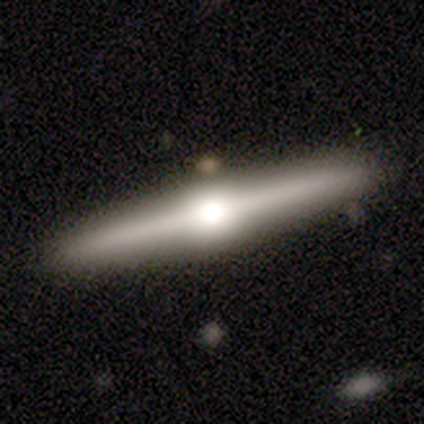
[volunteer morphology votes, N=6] This is clearly a featured or disk galaxy (83%). It is clearly viewed edge-on (100%). Edge-on bulge: clearly rounded (100%). Merging: likely none (67%).